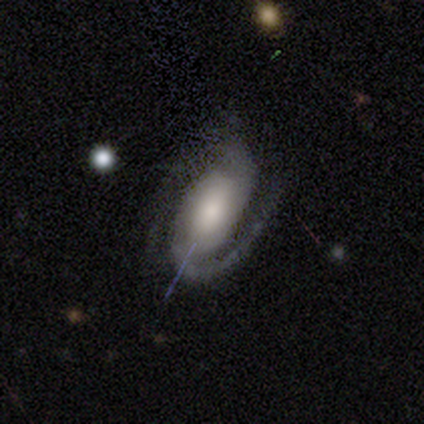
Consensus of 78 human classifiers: A featured or disk galaxy (82%) with no bar (48%), 2 (86%) medium (54%) spiral arms (98%) and a moderate central bulge (33%).

Vote fractions:
- Smooth or featured? featured or disk: 82% / smooth: 10% / star or artifact: 8%
- Edge-on disk? no: 100% / yes: 0%
- Bar? no: 48% / weak: 38% / strong: 14%
- Spiral arms? yes: 98% / no: 2%
- Spiral winding? medium: 54% / tight: 24% / loose: 22%
- Spiral arm count? 2: 86% / 1: 8% / can't tell: 6% / 3: 0% / 4: 0% / more than 4: 0%
- Bulge size? moderate: 33% / large: 31% / small: 19% / dominant: 9% / none: 8%
- Merging? none: 35% / minor disturbance: 15% / major disturbance: 4% / merger: 0%